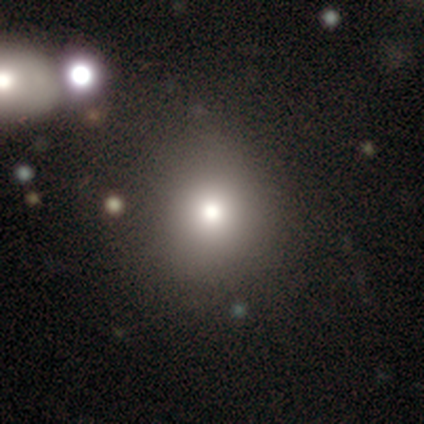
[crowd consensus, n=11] Smooth or featured?
  - smooth: 82% *
  - star or artifact: 18%
  - featured or disk: 0%
How rounded?
  - round: 100% *
  - in between: 0%
  - cigar-shaped: 0%
Merging?
  - none: 67% *
  - minor disturbance: 22%
  - major disturbance: 11%
  - merger: 0%